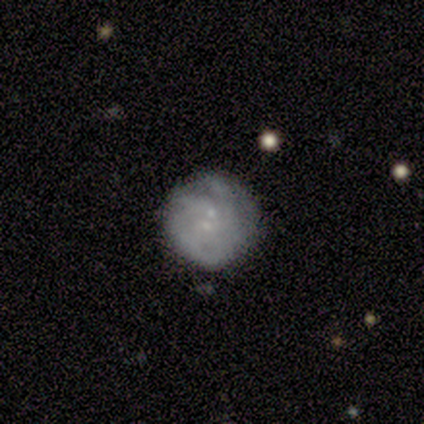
Smooth or featured: smooth — 60% (featured or disk — 40%)
How rounded: round — 100%
Merging: none — 80% (merger — 20%)